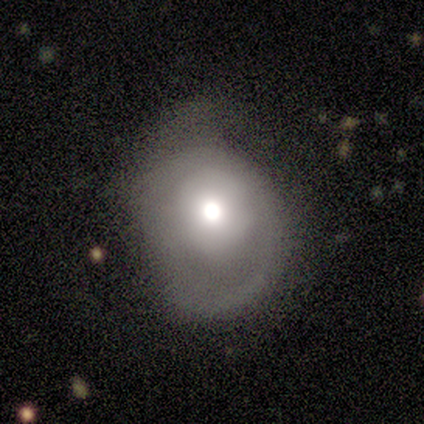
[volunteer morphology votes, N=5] This appears to be a featured or disk galaxy (60%) with no bar (100%), no spiral arms (100%) and a large central bulge (67%). Merging: minor disturbance (80%).